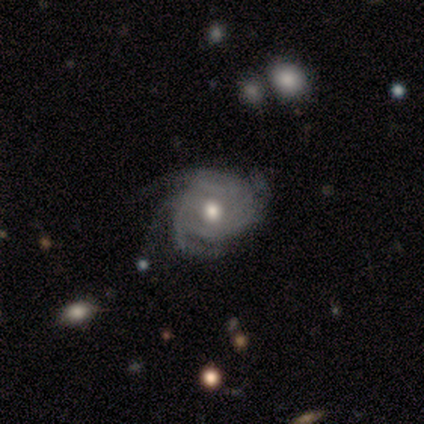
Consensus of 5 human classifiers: Smooth or featured?
  - featured or disk: 60% *
  - smooth: 40%
  - star or artifact: 0%
Edge-on disk?
  - no: 100% *
  - yes: 0%
Bar?
  - no: 100% *
  - strong: 0%
  - weak: 0%
Spiral arms?
  - yes: 100% *
  - no: 0%
Spiral winding?
  - tight: 67% *
  - medium: 33%
  - loose: 0%
Spiral arm count?
  - 3: 33% * (tied)
  - 4: 33% * (tied)
  - can't tell: 33% * (tied)
  - 1: 0%
  - 2: 0%
  - more than 4: 0%
Bulge size?
  - moderate: 100% *
  - dominant: 0%
  - large: 0%
  - small: 0%
  - none: 0%
Merging?
  - none: 60% *
  - minor disturbance: 40%
  - major disturbance: 0%
  - merger: 0%